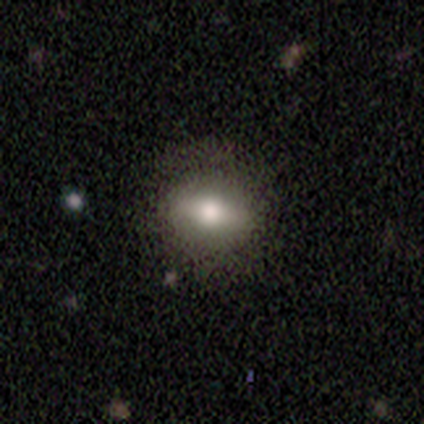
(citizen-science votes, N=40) A smooth galaxy with no disk features (52%) that is round (48%).

Vote fractions:
- Smooth or featured? smooth: 52% / featured or disk: 32% / star or artifact: 15%
- How rounded? round: 48% / in between: 43% / cigar-shaped: 10%
- Merging? none: 71% / minor disturbance: 21% / major disturbance: 6% / merger: 3%